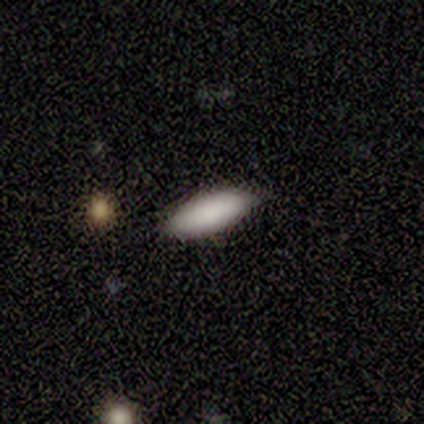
This is clearly a smooth galaxy (86%). How rounded: clearly in between (100%). Merging: possibly none (57%).